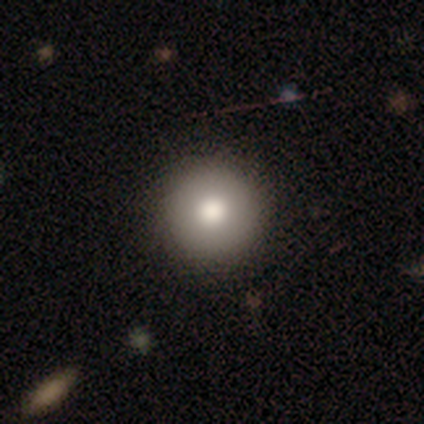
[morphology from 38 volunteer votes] Volunteers were most divided on "smooth or featured": smooth: 82%, featured or disk: 11%, star or artifact: 8%. More confident: merging — none (100%); how rounded — round (90%).